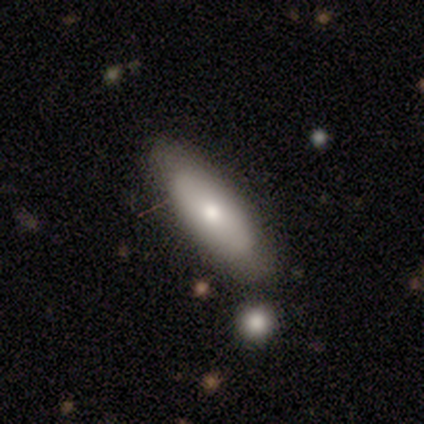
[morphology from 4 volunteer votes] type=smooth (75%); roundness=in between (67%); merging=none (100%).